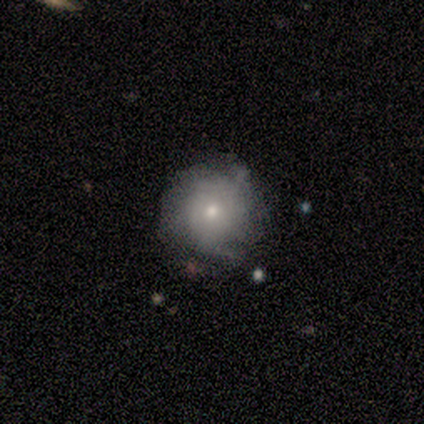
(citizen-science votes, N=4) Volunteers were most divided on "smooth or featured": smooth: 75%, featured or disk: 25%, star or artifact: 0%. More confident: how rounded — round (100%); merging — none (75%).